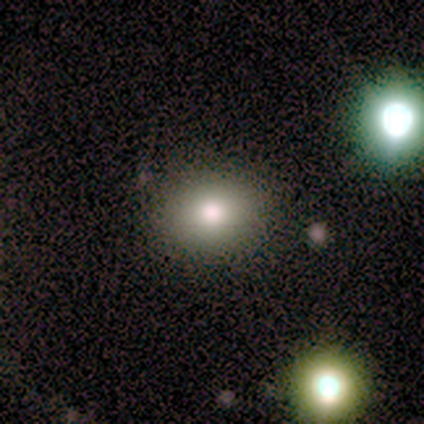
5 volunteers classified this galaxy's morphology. Volunteers were most divided on "how rounded": round: 75%, in between: 25%, cigar-shaped: 0%. More confident: merging — none (100%); smooth or featured — smooth (80%).